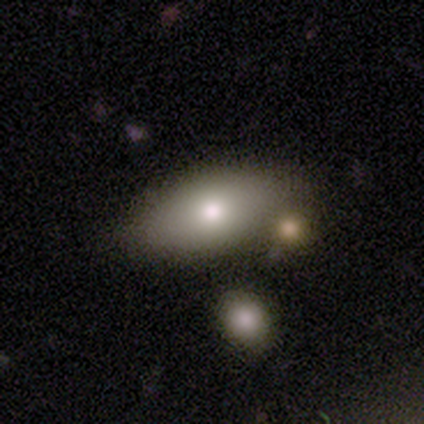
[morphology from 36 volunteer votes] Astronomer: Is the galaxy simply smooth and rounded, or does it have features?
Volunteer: smooth — 89%.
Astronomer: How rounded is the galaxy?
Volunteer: in between — 97%.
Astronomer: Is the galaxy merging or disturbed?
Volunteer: merger — 54%.